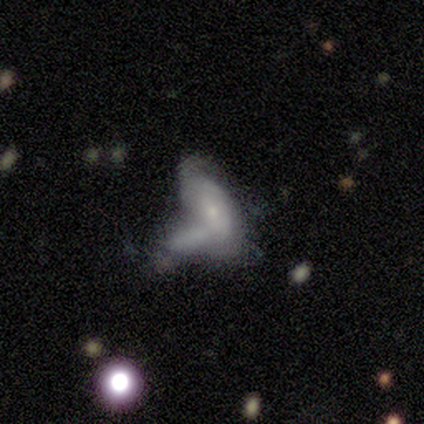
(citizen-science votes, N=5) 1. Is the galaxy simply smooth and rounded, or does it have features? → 60% smooth, 40% featured or disk, 0% star or artifact.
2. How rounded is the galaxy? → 100% in between, 0% round, 0% cigar-shaped.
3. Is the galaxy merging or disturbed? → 60% merger, 40% none, 0% minor disturbance, 0% major disturbance.